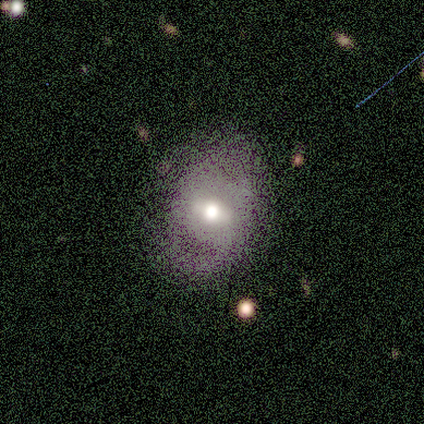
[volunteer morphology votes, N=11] type=smooth (64%); roundness=in between (71%); merging=none (82%).